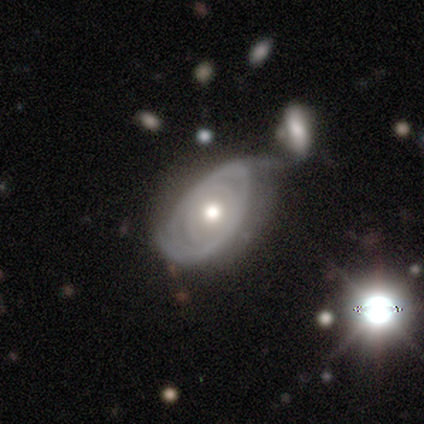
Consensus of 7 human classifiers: Volunteers were most divided on "spiral arm count" (2-way tie): 2: 40%, can't tell: 40%, 4: 20%, 1: 0%, 3: 0%, more than 4: 0%. More confident: smooth or featured — featured or disk (100%); edge-on disk — no (100%); bar — no (100%); spiral winding — tight (80%); spiral arms — yes (71%); merging — minor disturbance (71%); bulge size — moderate (57%).